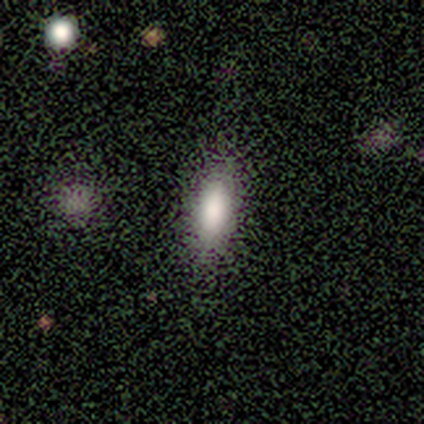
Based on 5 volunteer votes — Smooth or featured? smooth (80%)
How rounded? in between (50%, tied with cigar-shaped)
Merging? none (75%)